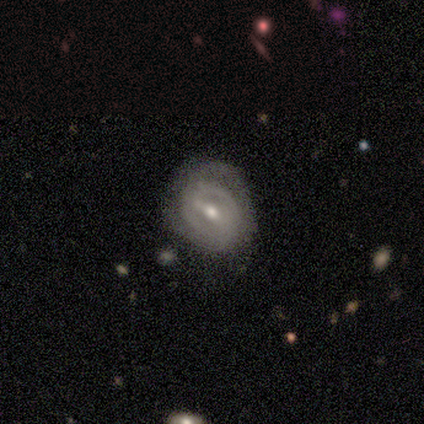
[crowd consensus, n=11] Q: Smooth or featured?
A: featured or disk (82%); runner-up: smooth (18%)
Q: Edge-on disk?
A: no (78%); runner-up: yes (22%)
Q: Bar?
A: weak (71%); runner-up: strong (14%)
Q: Spiral arms?
A: yes (100%)
Q: Spiral winding?
A: medium (43%); tied with: loose (43%)
Q: Spiral arm count?
A: 2 (57%); runner-up: can't tell (43%)
Q: Bulge size?
A: moderate (71%); runner-up: small (29%)
Q: Merging?
A: none (64%); runner-up: minor disturbance (18%)